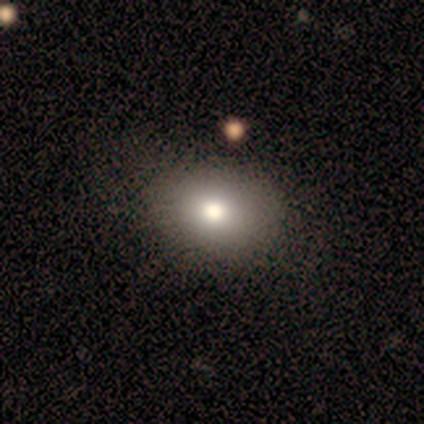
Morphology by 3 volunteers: smooth_or_featured: smooth (p=0.67) [alt: featured or disk p=0.33]
how_rounded: round (p=0.50) [tied with: in between p=0.50]
merging: none (p=0.67) [alt: major disturbance p=0.33]